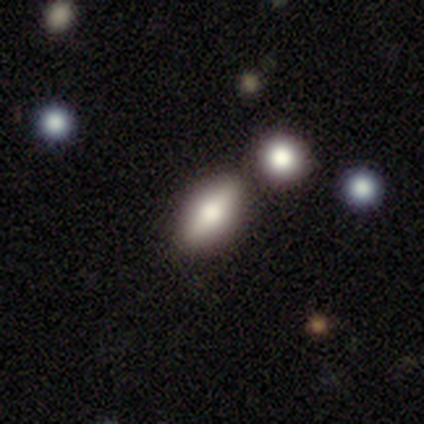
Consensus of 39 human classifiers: Q: Smooth or featured?
A: smooth (62%); runner-up: featured or disk (26%)
Q: How rounded?
A: in between (83%); runner-up: cigar-shaped (12%)
Q: Merging?
A: none (74%); runner-up: merger (15%)